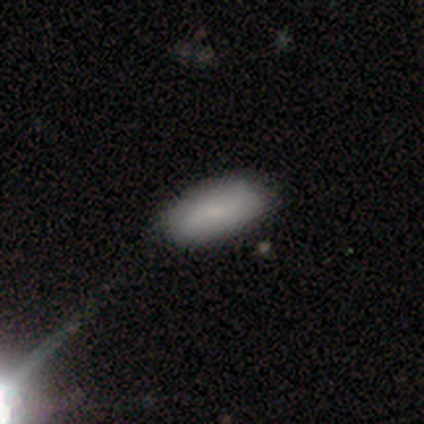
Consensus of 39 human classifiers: Volunteers were most divided on "smooth or featured": smooth: 72%, featured or disk: 21%, star or artifact: 8%. More confident: how rounded — in between (86%); merging — none (75%).